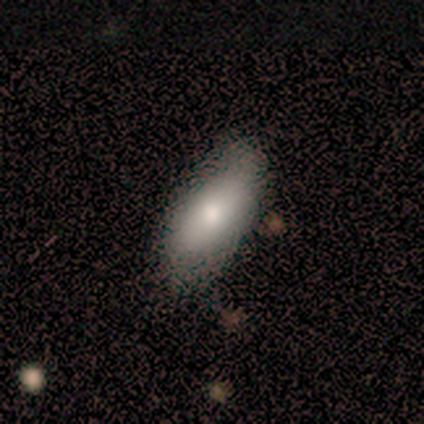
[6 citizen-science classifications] A smooth galaxy with no disk features (83%) that is in between round and cigar-shaped (80%).

Vote fractions:
- Smooth or featured? smooth: 83% / star or artifact: 17% / featured or disk: 0%
- How rounded? in between: 80% / cigar-shaped: 20% / round: 0%
- Merging? none: 100% / minor disturbance: 0% / major disturbance: 0% / merger: 0%